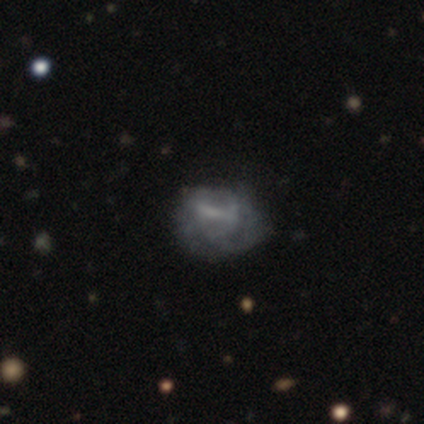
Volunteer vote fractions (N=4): Overall: smooth (50%; featured or disk 25%). How rounded: in between (100%). Merging: minor disturbance (67%; none 33%).